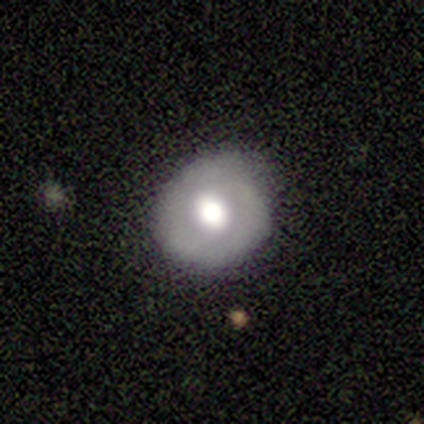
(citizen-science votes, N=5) smooth-or-featured: smooth: 60% | featured or disk: 40% | star or artifact: 0%
  how-rounded: round: 100% | in between: 0% | cigar-shaped: 0%
  merging: none: 80% | minor disturbance: 20% | major disturbance: 0% | merger: 0%